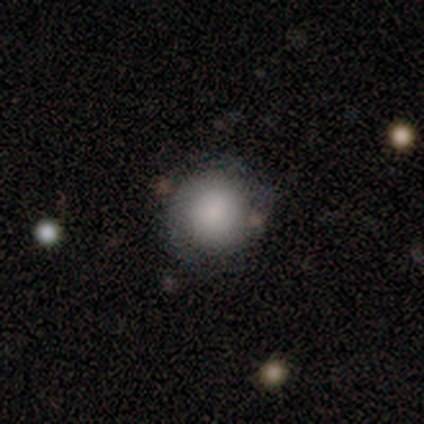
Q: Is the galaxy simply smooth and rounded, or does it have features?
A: smooth — 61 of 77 (79%).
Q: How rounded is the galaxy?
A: round — 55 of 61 (90%).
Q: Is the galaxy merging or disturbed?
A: none — 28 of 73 (38%).